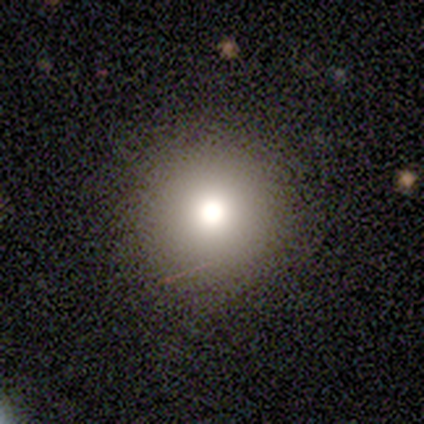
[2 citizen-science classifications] A smooth galaxy with no disk features (100%) that is round (100%). Merging: none (100%).